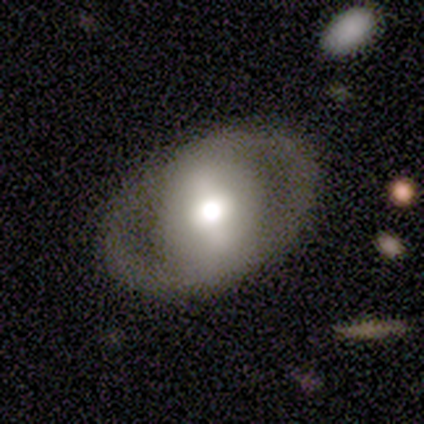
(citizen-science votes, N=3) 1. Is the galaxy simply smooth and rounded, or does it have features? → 100% featured or disk, 0% smooth, 0% star or artifact.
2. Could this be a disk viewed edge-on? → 100% no, 0% yes.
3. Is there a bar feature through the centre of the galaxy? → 67% strong, 33% no, 0% weak.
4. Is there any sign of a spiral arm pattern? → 67% yes, 33% no.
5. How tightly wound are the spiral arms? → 100% loose, 0% tight, 0% medium.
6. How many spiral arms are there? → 100% 2, 0% 1, 0% 3, 0% 4, 0% more than 4, 0% can't tell.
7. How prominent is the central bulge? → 67% moderate, 33% dominant, 0% large, 0% small, 0% none.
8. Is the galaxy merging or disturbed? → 67% none, 33% minor disturbance, 0% major disturbance, 0% merger.